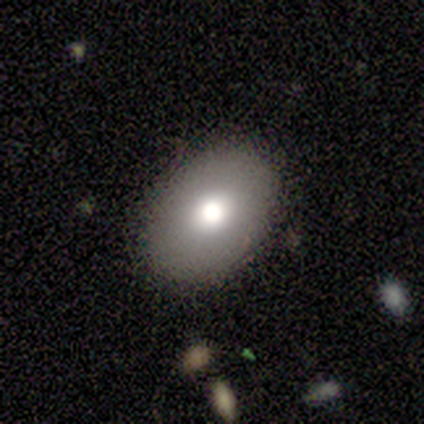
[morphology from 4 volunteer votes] smooth-or-featured: smooth: 75% | featured or disk: 25% | star or artifact: 0%
  how-rounded: in between: 100% | round: 0% | cigar-shaped: 0%
  merging: none: 100% | minor disturbance: 0% | major disturbance: 0% | merger: 0%